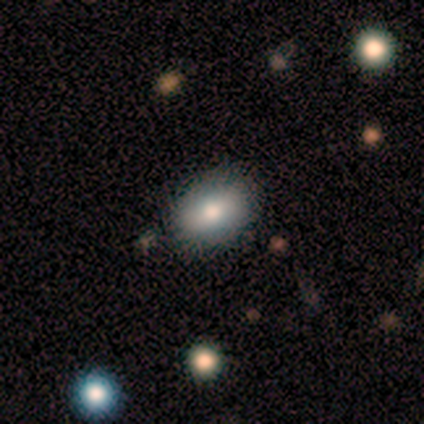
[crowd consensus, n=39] Morphology: type=smooth (69%); roundness=in between (74%); merging=none (77%).